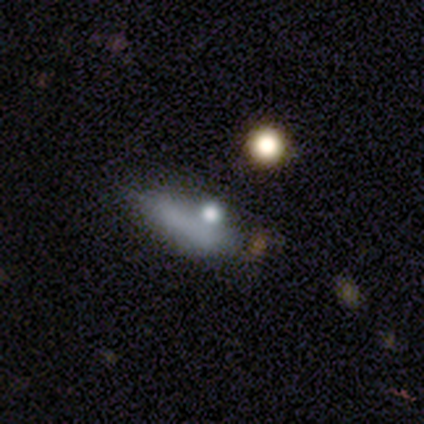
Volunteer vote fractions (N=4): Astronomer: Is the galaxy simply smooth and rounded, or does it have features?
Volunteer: smooth — 75%.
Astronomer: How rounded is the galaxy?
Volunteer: cigar-shaped — 67%.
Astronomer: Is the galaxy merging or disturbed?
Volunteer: minor disturbance — 67%.